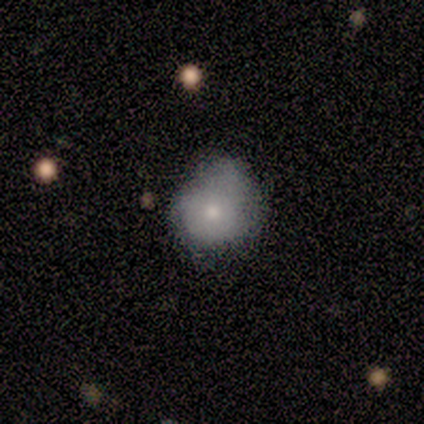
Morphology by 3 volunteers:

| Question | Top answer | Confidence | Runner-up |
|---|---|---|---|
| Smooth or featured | smooth | 100% | — |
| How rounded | in between | 67% | round (33%) |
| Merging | minor disturbance | 100% | — |